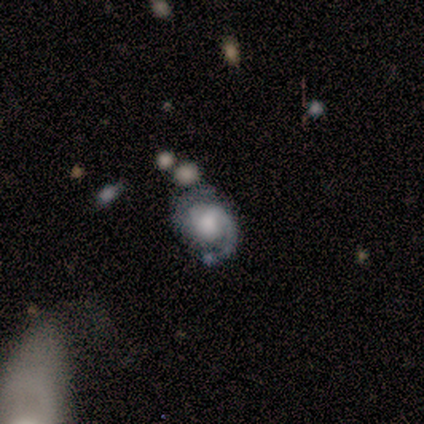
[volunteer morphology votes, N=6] This appears to be a featured or disk galaxy (100%) with a weak bar (50%, tied with no), 2 (100%) tight (50%) spiral arms (100%) and a moderate central bulge (50%). Merging: none (83%).